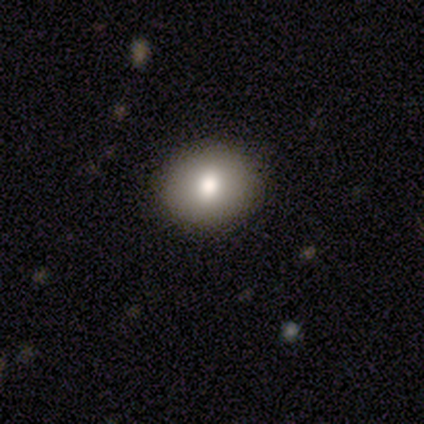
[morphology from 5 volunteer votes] A smooth galaxy with no disk features (80%) that is round (75%). Merging: none (80%).